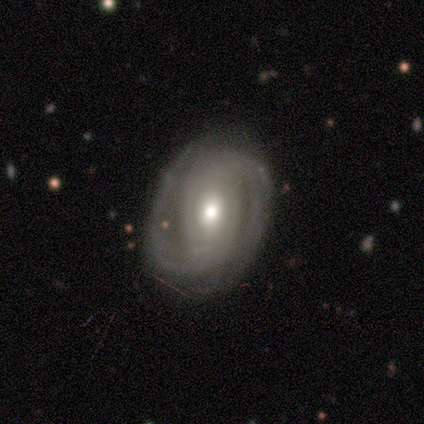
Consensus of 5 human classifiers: Overall: featured or disk (100%). Edge-on disk: no (100%). Bar: weak (80%). Spiral arms: yes (100%). Spiral arm count: 2 (80%). Spiral winding: medium (60%; tight 40%). Bulge size: moderate (60%; large 20%). Merging: none (80%).